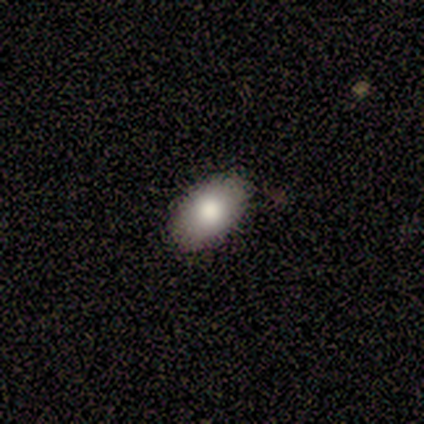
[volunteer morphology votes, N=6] A smooth galaxy with no disk features (67%) that is in between round and cigar-shaped (100%). Merging: none (40%, tied with minor disturbance).